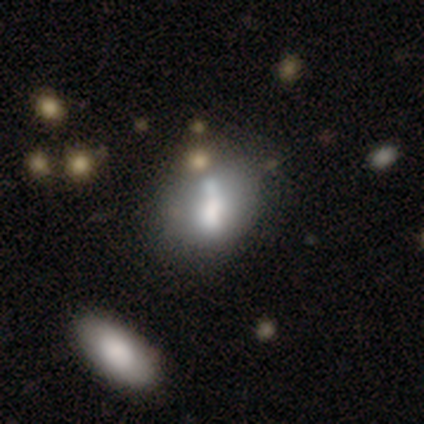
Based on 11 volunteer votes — Smooth or featured? 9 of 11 (82%) said smooth. How rounded? 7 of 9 (78%) said in between. Merging? 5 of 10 (50%) said none.